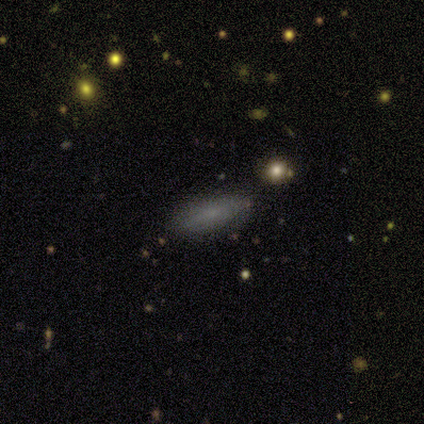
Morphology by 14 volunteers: smooth_or_featured: smooth (p=0.79) [alt: featured or disk p=0.21]
how_rounded: in between (p=0.55) [alt: cigar-shaped p=0.45]
merging: none (p=0.79) [alt: minor disturbance p=0.21]